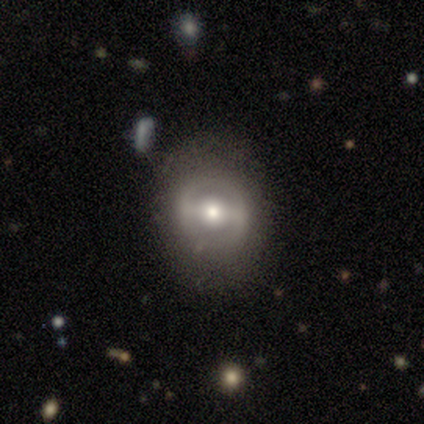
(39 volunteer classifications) Smooth or featured: featured or disk — 59% (smooth — 36%)
Edge-on disk: no — 96% (yes — 4%)
Bar: strong — 55% (weak — 36%)
Spiral arms: no — 64% (yes — 36%)
Bulge size: moderate — 55% (small — 32%)
Merging: none — 65% (major disturbance — 22%)